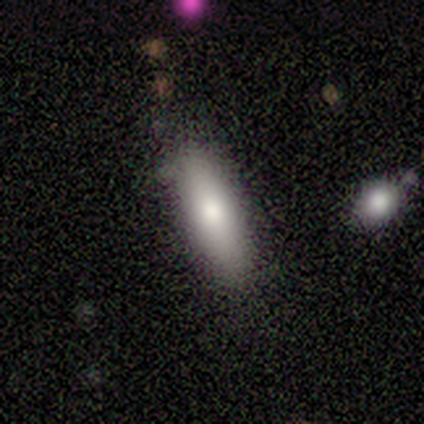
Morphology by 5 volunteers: Smooth or featured: smooth — 80% (featured or disk — 20%)
How rounded: cigar-shaped — 75% (in between — 25%)
Merging: none — 100%